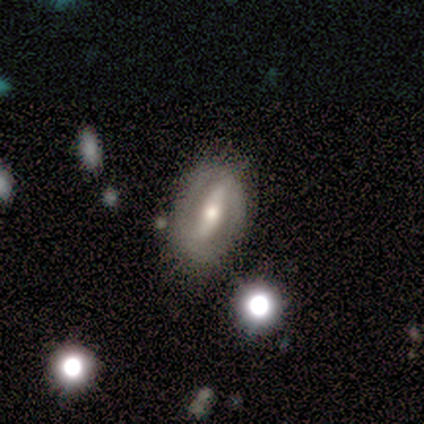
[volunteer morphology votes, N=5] A featured or disk galaxy (80%) with a strong bar (100%), 1 (33%, tied with 2 and can't tell) medium (67%) spiral arms (75%) and a moderate central bulge (50%). Merging: none (100%).